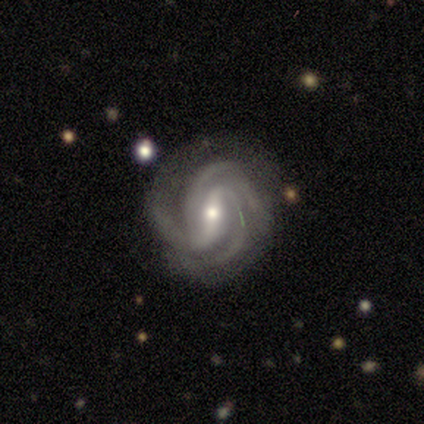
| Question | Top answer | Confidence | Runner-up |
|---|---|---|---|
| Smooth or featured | featured or disk | 90% | smooth (5%) |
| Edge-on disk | no | 100% | — |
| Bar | weak | 50% | strong (42%) |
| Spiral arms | yes | 100% | — |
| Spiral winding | tight | 56% | medium (42%) |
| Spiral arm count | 3 | 61% | 4 (17%) |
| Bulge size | moderate | 56% | small (39%) |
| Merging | none | 71% | minor disturbance (21%) |